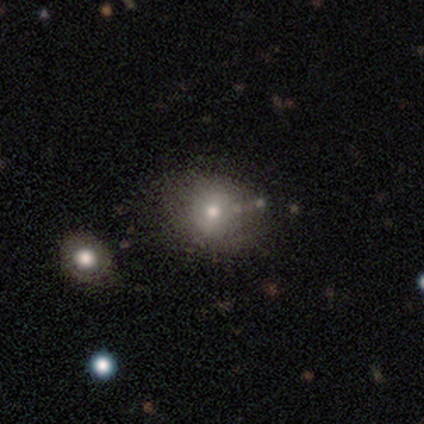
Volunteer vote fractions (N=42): smooth 71%, star or artifact 17%, featured or disk 12%. Down the decision tree: how rounded — round (63%); merging — none (51%).